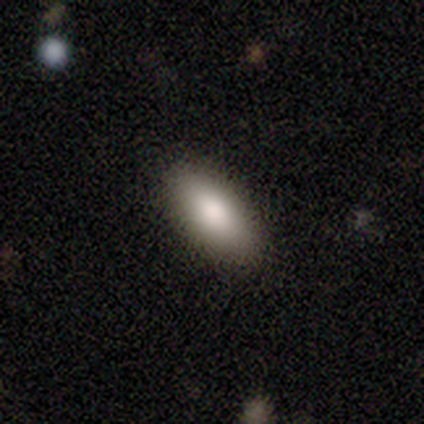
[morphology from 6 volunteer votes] smooth_or_featured: smooth (p=0.83) [alt: featured or disk p=0.17]
how_rounded: in between (p=1.00)
merging: none (p=1.00)